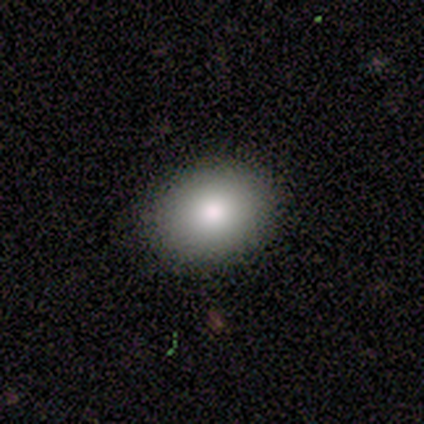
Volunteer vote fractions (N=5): Volunteers were most divided on "how rounded": in between: 75%, round: 25%, cigar-shaped: 0%. More confident: merging — none (100%); smooth or featured — smooth (80%).